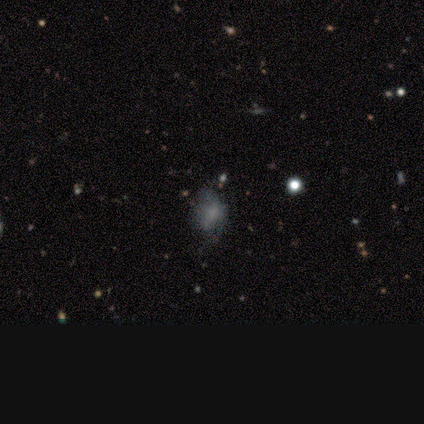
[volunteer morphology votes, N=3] A smooth galaxy with no disk features (67%) that is round (50%, tied with in between).

Vote fractions:
- Smooth or featured? smooth: 67% / featured or disk: 33% / star or artifact: 0%
- How rounded? round: 50% (tied) / in between: 50% (tied) / cigar-shaped: 0%
- Merging? major disturbance: 67% / none: 33% / minor disturbance: 0% / merger: 0%